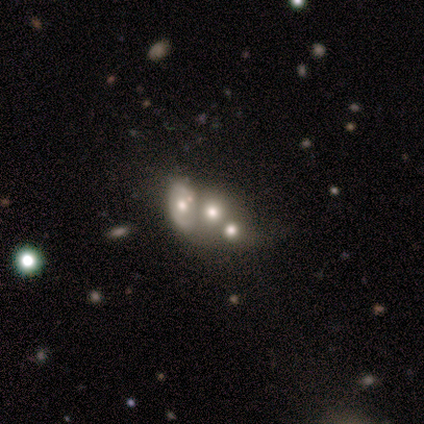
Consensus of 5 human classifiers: Overall: smooth (60%; featured or disk 40%). How rounded: round (100%). Merging: merger (60%; none 40%).